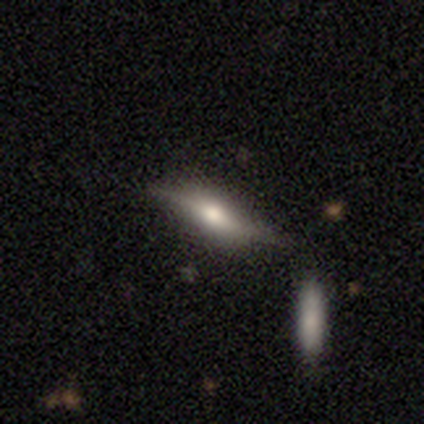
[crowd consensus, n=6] smooth_or_featured: smooth (p=0.50) [tied with: featured or disk p=0.50]
how_rounded: in between (p=0.67) [alt: cigar-shaped p=0.33]
merging: none (p=0.67) [alt: minor disturbance p=0.33]